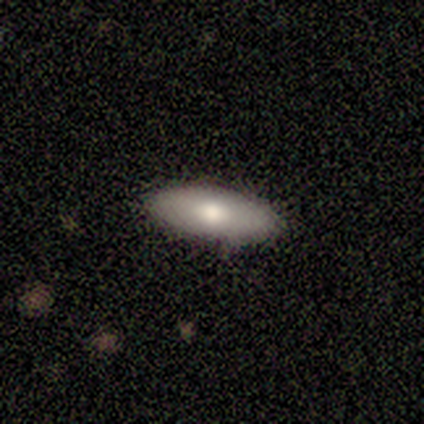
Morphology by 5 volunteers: smooth-or-featured: smooth: 40% (tied) | featured or disk: 40% (tied) | star or artifact: 20%
  how-rounded: in between: 50% (tied) | cigar-shaped: 50% (tied) | round: 0%
  merging: none: 100% | minor disturbance: 0% | major disturbance: 0% | merger: 0%